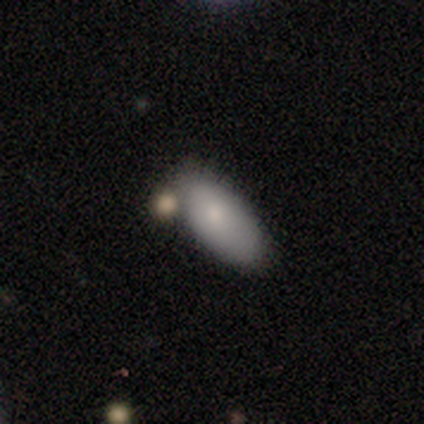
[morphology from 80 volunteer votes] This is clearly a smooth galaxy (82%). How rounded: clearly in between (85%). Merging: possibly none (51%).